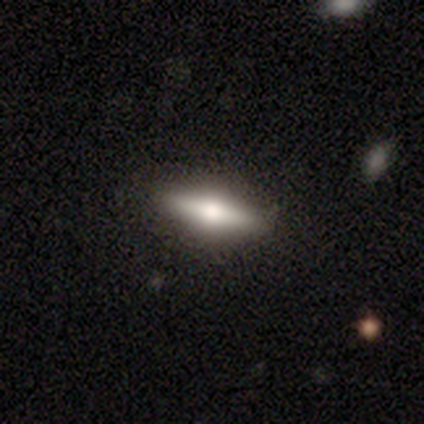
Smooth or featured? featured or disk (50%)
Edge-on disk? yes (100%)
Edge-on bulge? rounded (95%)
Merging? none (100%)